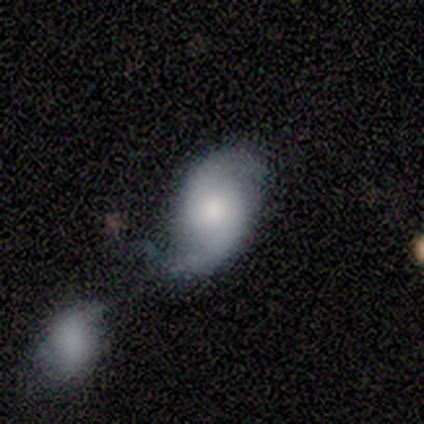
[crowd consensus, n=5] A featured or disk galaxy (80%) with no bar (67%), 2 (67%) tight (33%, tied with medium and loose) spiral arms (100%) and a small central bulge (67%).

Vote fractions:
- Smooth or featured? featured or disk: 80% / smooth: 20% / star or artifact: 0%
- Edge-on disk? no: 75% / yes: 25%
- Bar? no: 67% / weak: 33% / strong: 0%
- Spiral arms? yes: 100% / no: 0%
- Spiral winding? tight: 33% (tied) / medium: 33% (tied) / loose: 33% (tied)
- Spiral arm count? 2: 67% / 1: 33% / 3: 0% / 4: 0% / more than 4: 0% / can't tell: 0%
- Bulge size? small: 67% / moderate: 33% / dominant: 0% / large: 0% / none: 0%
- Merging? merger: 60% / none: 20% / minor disturbance: 20% / major disturbance: 0%